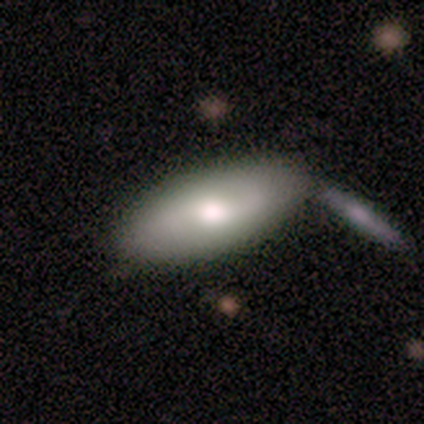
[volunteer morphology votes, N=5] A smooth galaxy with no disk features (60%) that is in between round and cigar-shaped (100%).

Vote fractions:
- Smooth or featured? smooth: 60% / featured or disk: 40% / star or artifact: 0%
- How rounded? in between: 100% / round: 0% / cigar-shaped: 0%
- Merging? none: 100% / minor disturbance: 0% / major disturbance: 0% / merger: 0%